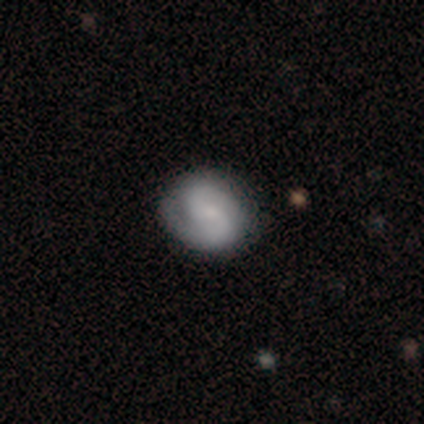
smooth-or-featured: featured or disk: 71% | smooth: 29% | star or artifact: 0%
  disk-edge-on: no: 100% | yes: 0%
    bar: no: 62% | strong: 21% | weak: 17%
    has-spiral-arms: yes: 86% | no: 14%
      spiral-winding: tight: 44% | medium: 40% | loose: 16%
      spiral-arm-count: 2: 100% | 1: 0% | 3: 0% | 4: 0% | more than 4: 0% | can't tell: 0%
    bulge-size: small: 52% | moderate: 24% | none: 17% | dominant: 7% | large: 0%
  merging: none: 61% | minor disturbance: 15% | major disturbance: 5% | merger: 0%